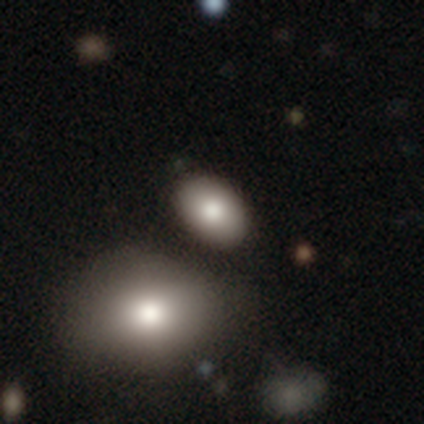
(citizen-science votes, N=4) A smooth galaxy with no disk features (100%) that is in between round and cigar-shaped (100%). Merging: none (100%).